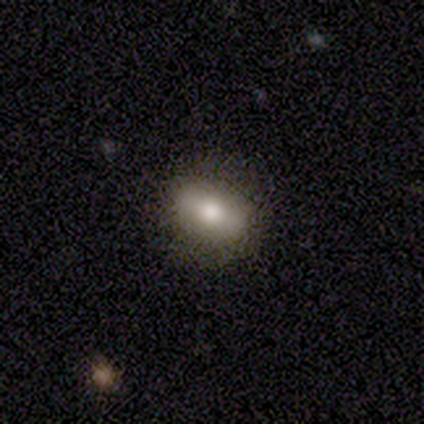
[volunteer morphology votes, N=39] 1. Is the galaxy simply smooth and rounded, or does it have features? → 72% smooth, 18% featured or disk, 10% star or artifact.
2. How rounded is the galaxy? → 71% in between, 18% round, 11% cigar-shaped.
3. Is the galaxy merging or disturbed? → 86% none, 9% minor disturbance, 6% major disturbance, 0% merger.